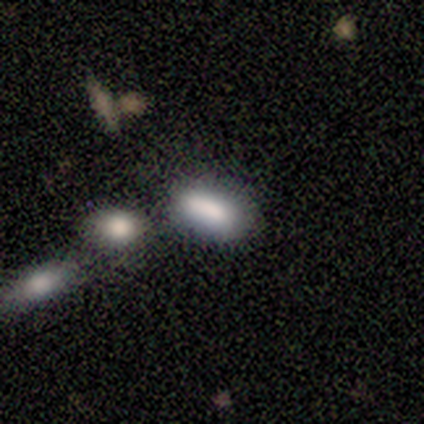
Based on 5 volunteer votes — A smooth galaxy with no disk features (60%) that is in between round and cigar-shaped (100%). Merging: none (50%).